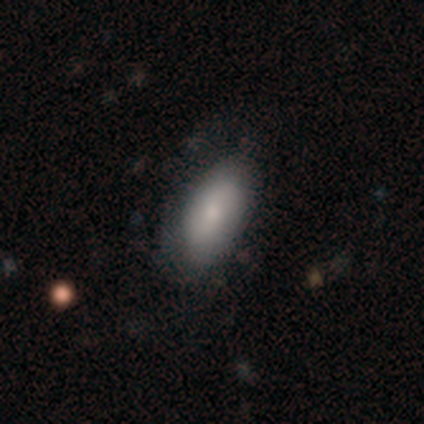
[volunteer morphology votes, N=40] Smooth or featured? smooth (85%)
How rounded? in between (91%)
Merging? none (64%)